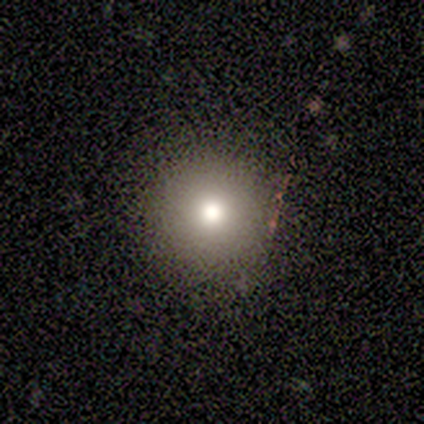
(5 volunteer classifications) smooth-or-featured: smooth: 80% | star or artifact: 20% | featured or disk: 0%
  how-rounded: round: 100% | in between: 0% | cigar-shaped: 0%
  merging: none: 100% | minor disturbance: 0% | major disturbance: 0% | merger: 0%